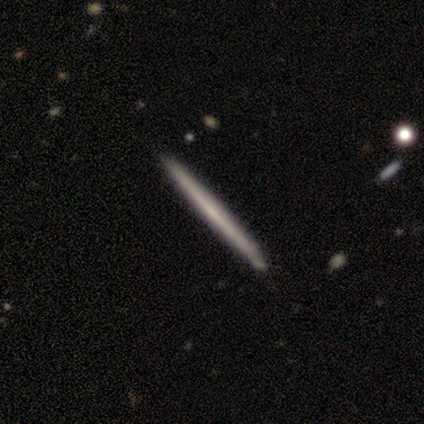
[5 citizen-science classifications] This appears to be a smooth galaxy with no disk features (80%) that is cigar-shaped (100%). Merging: none (80%).